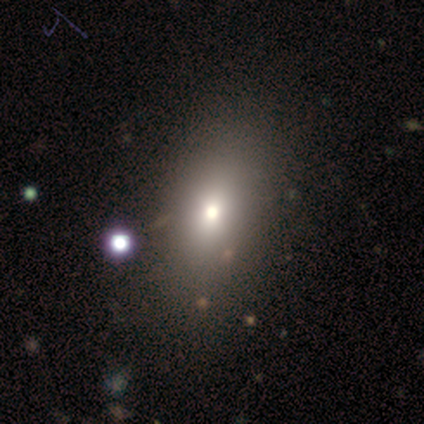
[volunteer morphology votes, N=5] Smooth or featured? smooth (40%, tied with star or artifact)
How rounded? in between (100%)
Merging? none (100%)